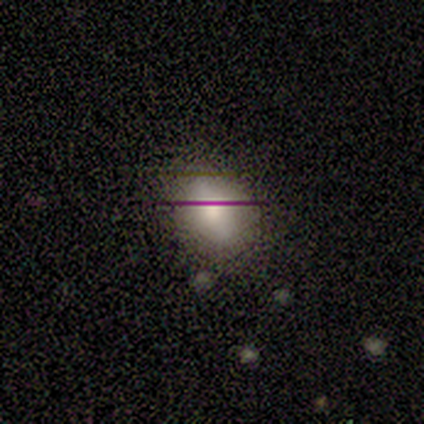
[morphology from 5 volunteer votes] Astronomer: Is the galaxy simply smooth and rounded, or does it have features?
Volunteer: smooth — 40%, tied with featured or disk at 40%.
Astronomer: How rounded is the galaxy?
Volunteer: round — 50%, tied with in between at 50%.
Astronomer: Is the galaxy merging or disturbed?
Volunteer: none — 75%.